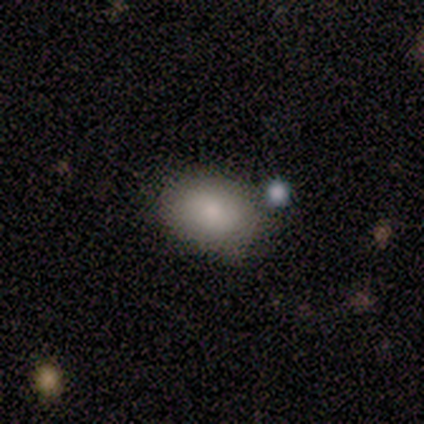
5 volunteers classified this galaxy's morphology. Smooth or featured?
  - smooth: 100% *
  - featured or disk: 0%
  - star or artifact: 0%
How rounded?
  - in between: 100% *
  - round: 0%
  - cigar-shaped: 0%
Merging?
  - none: 60% *
  - minor disturbance: 20%
  - major disturbance: 20%
  - merger: 0%